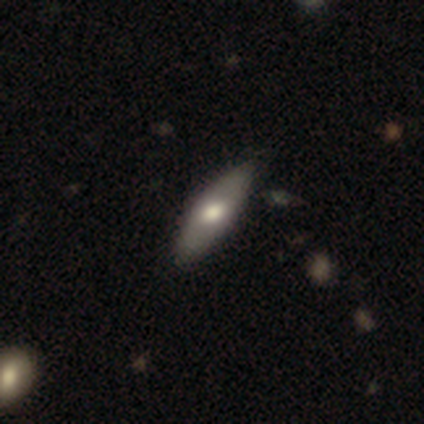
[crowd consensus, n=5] Q: Smooth or featured?
A: smooth (60%); runner-up: featured or disk (40%)
Q: How rounded?
A: in between (67%); runner-up: cigar-shaped (33%)
Q: Merging?
A: none (80%); runner-up: minor disturbance (20%)